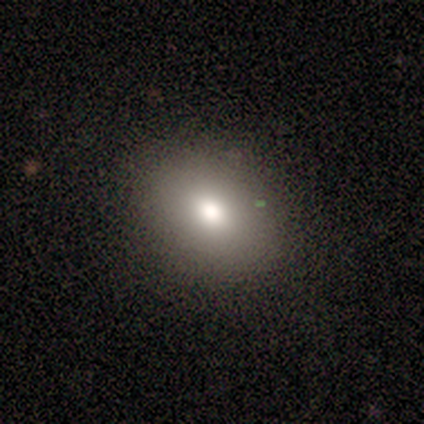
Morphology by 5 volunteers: Smooth or featured: smooth — 100%
How rounded: round — 80% (in between — 20%)
Merging: none — 100%